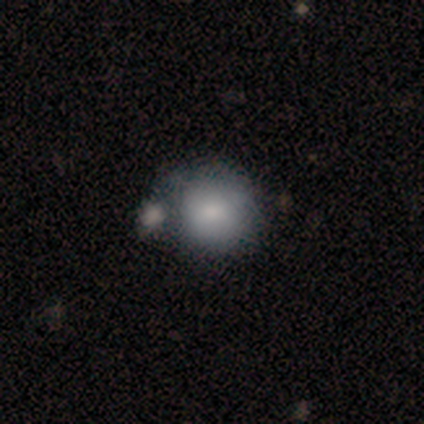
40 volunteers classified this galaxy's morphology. A smooth galaxy with no disk features (70%) that is round (96%).

Vote fractions:
- Smooth or featured? smooth: 70% / featured or disk: 22% / star or artifact: 8%
- How rounded? round: 96% / in between: 4% / cigar-shaped: 0%
- Merging? merger: 46% / none: 30% / minor disturbance: 19% / major disturbance: 5%